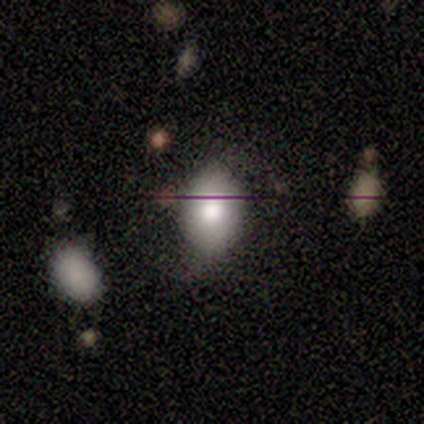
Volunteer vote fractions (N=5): Morphology: type=smooth (100%); roundness=in between (60%); merging=none (80%).